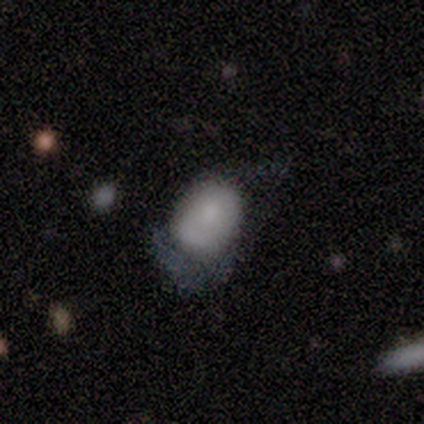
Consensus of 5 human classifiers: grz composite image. It shows a smooth galaxy with no disk features (80%) that is in between round and cigar-shaped (100%). Merging: minor disturbance (60%).